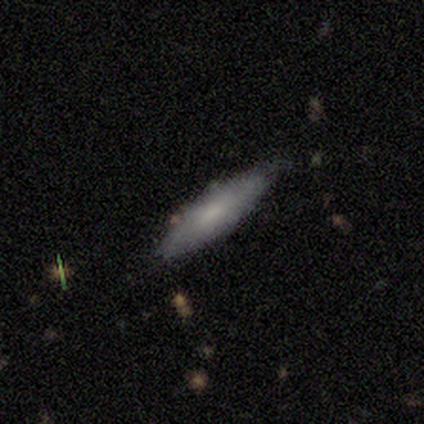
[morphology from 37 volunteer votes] A smooth galaxy with no disk features (57%) that is cigar-shaped (71%).

Vote fractions:
- Smooth or featured? smooth: 57% / featured or disk: 41% / star or artifact: 3%
- How rounded? cigar-shaped: 71% / in between: 24% / round: 5%
- Merging? none: 75% / minor disturbance: 22% / merger: 3% / major disturbance: 0%